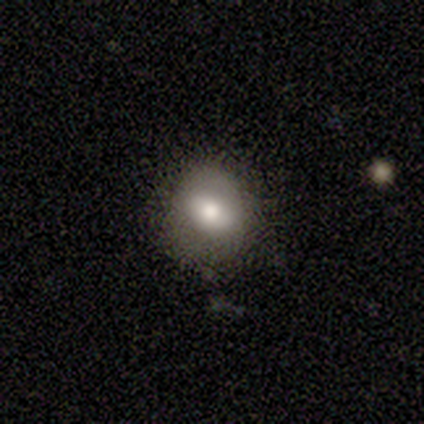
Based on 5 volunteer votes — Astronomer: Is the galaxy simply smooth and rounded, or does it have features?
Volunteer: smooth — 80%.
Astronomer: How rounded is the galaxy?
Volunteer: round — 50%, tied with in between at 50%.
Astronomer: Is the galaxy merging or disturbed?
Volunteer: none — 80%.